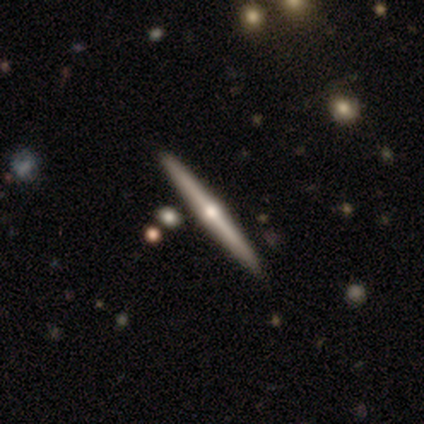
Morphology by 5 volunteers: featured or disk 60%, smooth 20%, star or artifact 20%. Down the decision tree: edge-on disk — yes (100%); edge-on bulge — rounded (67%); merging — none (50%).